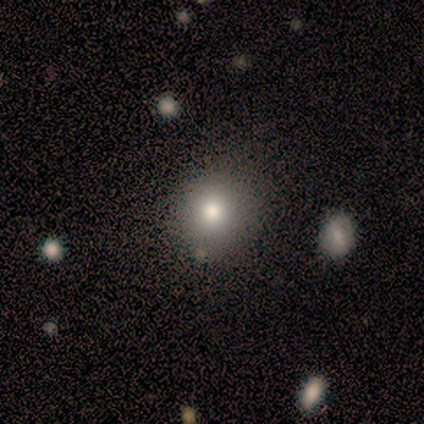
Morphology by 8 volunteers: type=smooth (75%); roundness=round (67%); merging=none (100%).